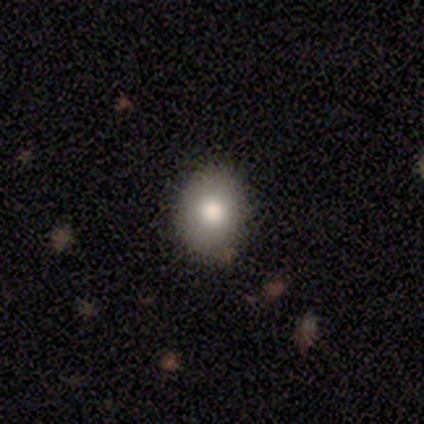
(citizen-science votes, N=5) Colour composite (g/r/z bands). It shows a smooth galaxy with no disk features (80%) that is round (75%). Merging: none (100%).